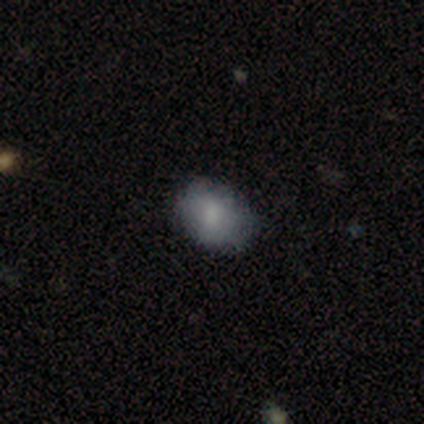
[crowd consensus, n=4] This is clearly a smooth galaxy (100%). How rounded: possibly round (50%, tied with in between). Merging: clearly none (100%).